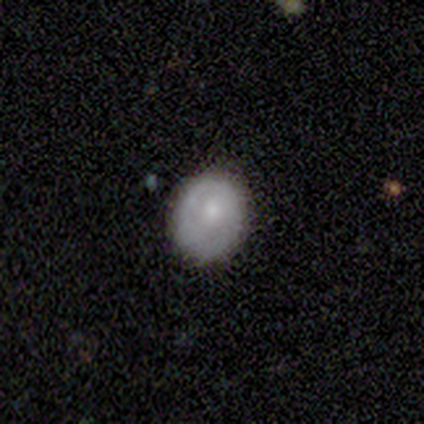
Smooth or featured? smooth (40%, tied with star or artifact)
How rounded? in between (100%)
Merging? none (67%)